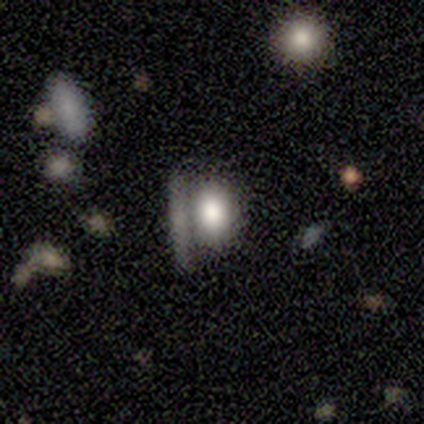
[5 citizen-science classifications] Smooth or featured?
  - smooth: 80% *
  - star or artifact: 20%
  - featured or disk: 0%
How rounded?
  - in between: 75% *
  - round: 25%
  - cigar-shaped: 0%
Merging?
  - none: 75% *
  - merger: 25%
  - minor disturbance: 0%
  - major disturbance: 0%